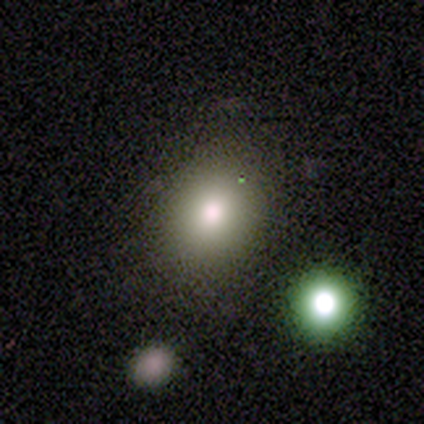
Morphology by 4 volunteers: smooth_or_featured: smooth (p=0.75) [alt: featured or disk p=0.25]
how_rounded: round (p=1.00)
merging: none (p=0.75) [alt: major disturbance p=0.25]